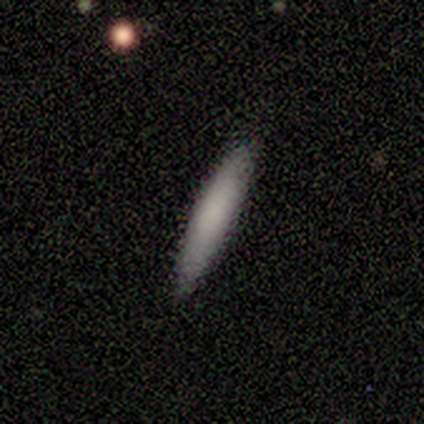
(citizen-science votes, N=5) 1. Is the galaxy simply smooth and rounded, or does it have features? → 80% smooth, 20% featured or disk, 0% star or artifact.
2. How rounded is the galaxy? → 75% cigar-shaped, 25% in between, 0% round.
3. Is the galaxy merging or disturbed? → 80% none, 20% minor disturbance, 0% major disturbance, 0% merger.